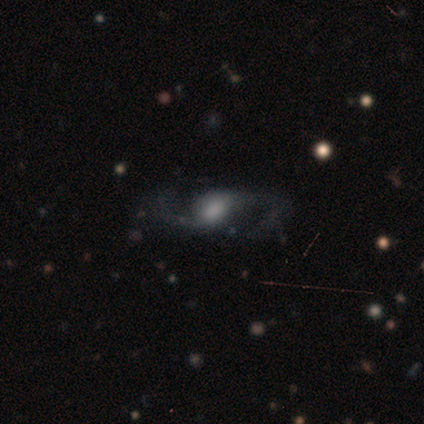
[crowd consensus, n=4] Smooth or featured?
  - featured or disk: 100% *
  - smooth: 0%
  - star or artifact: 0%
Edge-on disk?
  - no: 75% *
  - yes: 25%
Bar?
  - weak: 67% *
  - no: 33%
  - strong: 0%
Spiral arms?
  - yes: 100% *
  - no: 0%
Spiral winding?
  - loose: 100% *
  - tight: 0%
  - medium: 0%
Spiral arm count?
  - 2: 67% *
  - can't tell: 33%
  - 1: 0%
  - 3: 0%
  - 4: 0%
  - more than 4: 0%
Bulge size?
  - moderate: 67% *
  - small: 33%
  - dominant: 0%
  - large: 0%
  - none: 0%
Merging?
  - none: 100% *
  - minor disturbance: 0%
  - major disturbance: 0%
  - merger: 0%